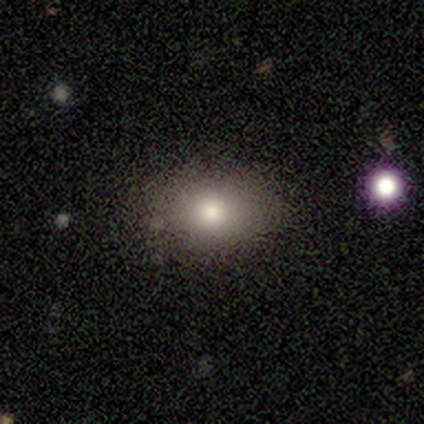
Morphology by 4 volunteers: This appears to be a smooth galaxy with no disk features (100%) that is in between round and cigar-shaped (100%). Merging: none (100%).